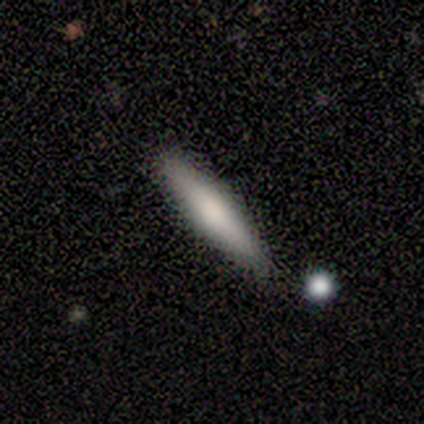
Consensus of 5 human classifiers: smooth-or-featured: smooth: 80% | featured or disk: 20% | star or artifact: 0%
  how-rounded: cigar-shaped: 100% | round: 0% | in between: 0%
  merging: none: 80% | minor disturbance: 20% | major disturbance: 0% | merger: 0%